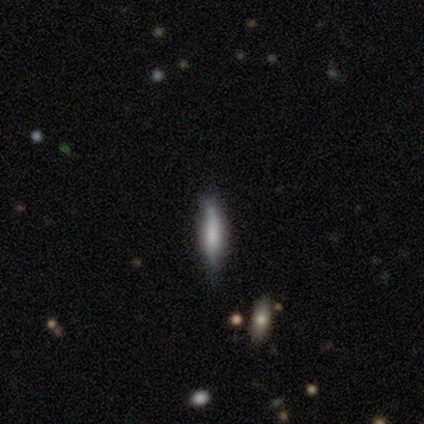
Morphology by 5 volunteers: This is likely a featured or disk galaxy (60%). It is likely viewed edge-on (67%). Edge-on bulge: clearly boxy (100%). Merging: likely none (60%).